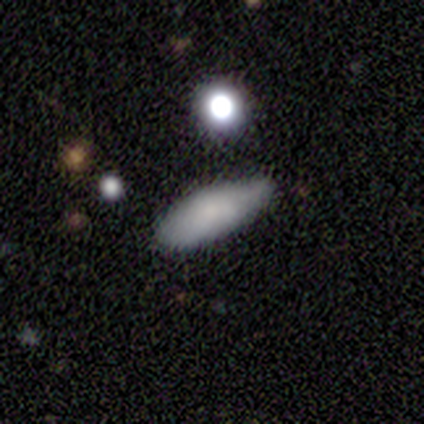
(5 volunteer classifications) Q: Smooth or featured?
A: smooth (80%); runner-up: star or artifact (20%)
Q: How rounded?
A: in between (50%); tied with: cigar-shaped (50%)
Q: Merging?
A: none (50%); runner-up: minor disturbance (25%)